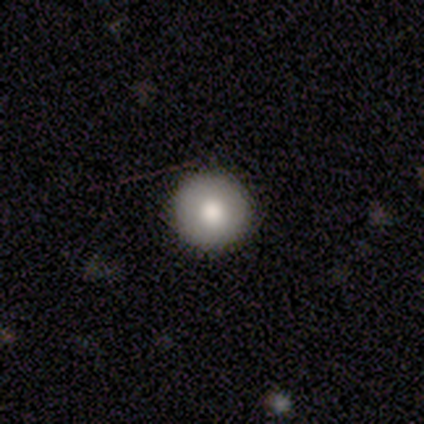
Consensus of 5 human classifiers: Smooth or featured? 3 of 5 (60%) said smooth. How rounded? 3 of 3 (100%) said round. Merging? 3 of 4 (75%) said none.